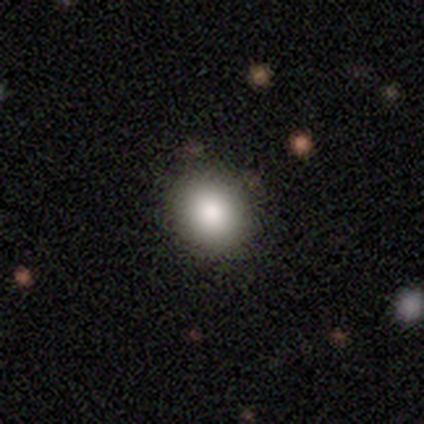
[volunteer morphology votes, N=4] type=smooth (100%); roundness=round (100%); merging=none (100%).